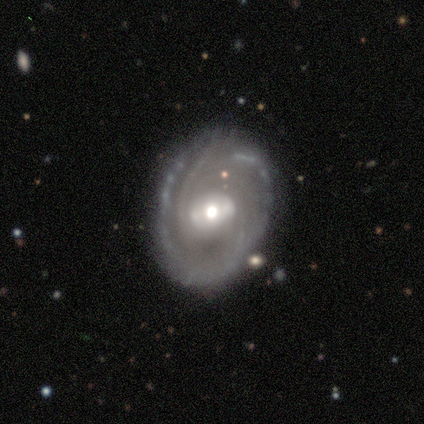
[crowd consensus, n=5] smooth-or-featured: featured or disk: 100% | smooth: 0% | star or artifact: 0%
  disk-edge-on: no: 100% | yes: 0%
    bar: no: 60% | weak: 40% | strong: 0%
    has-spiral-arms: yes: 60% | no: 40%
      spiral-winding: tight: 67% | medium: 33% | loose: 0%
      spiral-arm-count: 2: 67% | 3: 33% | 1: 0% | 4: 0% | more than 4: 0% | can't tell: 0%
    bulge-size: small: 60% | moderate: 40% | dominant: 0% | large: 0% | none: 0%
  merging: none: 80% | minor disturbance: 20% | major disturbance: 0% | merger: 0%